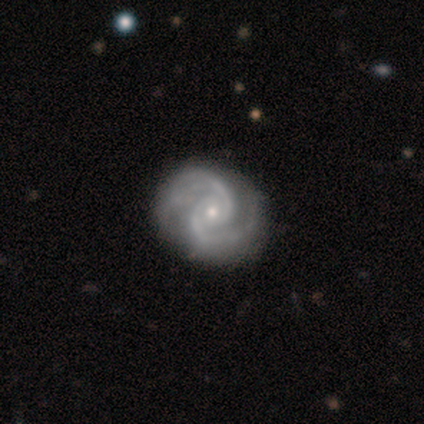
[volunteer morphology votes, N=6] smooth_or_featured: featured or disk (p=0.83) [alt: smooth p=0.17]
disk_edge_on: no (p=1.00)
bar: no (p=0.80) [alt: weak p=0.20]
has_spiral_arms: yes (p=1.00)
spiral_winding: tight (p=0.60) [alt: medium p=0.40]
spiral_arm_count: 2 (p=0.80) [alt: 3 p=0.20]
bulge_size: small (p=0.80) [alt: moderate p=0.20]
merging: none (p=0.67) [alt: minor disturbance p=0.33]